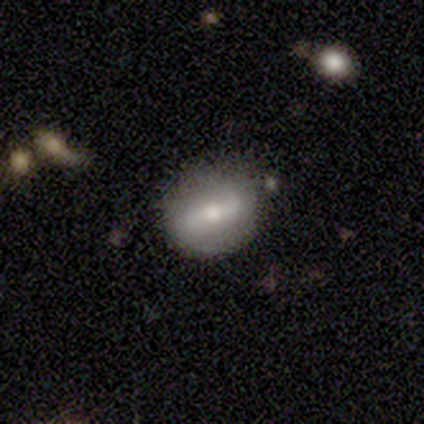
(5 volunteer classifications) A featured or disk galaxy (60%) with no bar (67%), 2 (100%) medium (50%, tied with loose) spiral arms (67%) and a small central bulge (100%). Merging: none (75%).